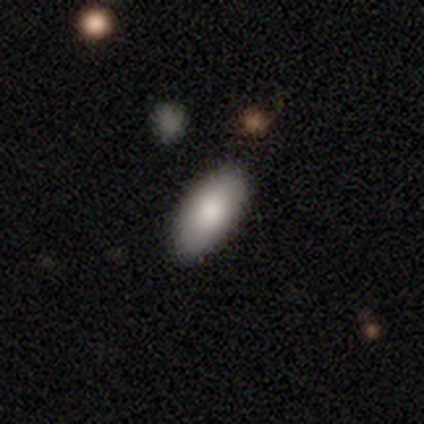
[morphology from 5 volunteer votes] This is clearly a smooth galaxy (80%). How rounded: clearly in between (100%). Merging: clearly none (100%).